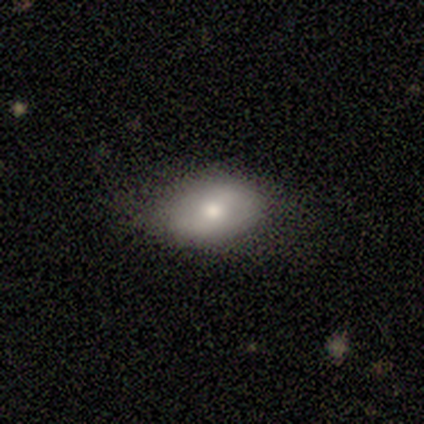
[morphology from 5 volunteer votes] This is marginally a smooth galaxy (40%, tied with featured or disk). How rounded: clearly in between (100%). Merging: likely none (75%).